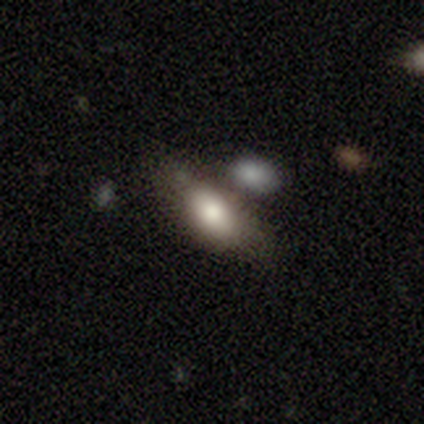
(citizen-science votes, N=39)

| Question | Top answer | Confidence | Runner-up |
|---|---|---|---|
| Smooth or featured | smooth | 72% | featured or disk (26%) |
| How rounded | in between | 82% | cigar-shaped (18%) |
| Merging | none | 53% | merger (24%) |